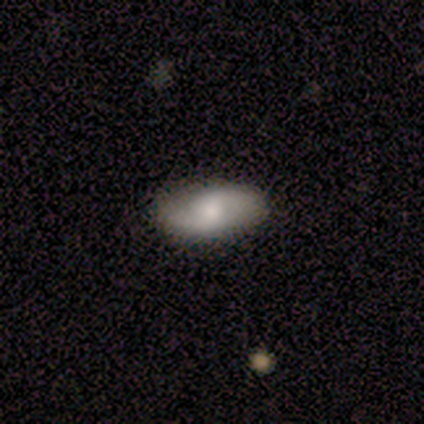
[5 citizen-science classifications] Smooth or featured?
  - featured or disk: 60% *
  - smooth: 40%
  - star or artifact: 0%
Edge-on disk?
  - no: 100% *
  - yes: 0%
Bar?
  - no: 100% *
  - strong: 0%
  - weak: 0%
Spiral arms?
  - yes: 100% *
  - no: 0%
Spiral winding?
  - loose: 100% *
  - tight: 0%
  - medium: 0%
Spiral arm count?
  - 2: 100% *
  - 1: 0%
  - 3: 0%
  - 4: 0%
  - more than 4: 0%
  - can't tell: 0%
Bulge size?
  - none: 67% *
  - moderate: 33%
  - dominant: 0%
  - large: 0%
  - small: 0%
Merging?
  - none: 100% *
  - minor disturbance: 0%
  - major disturbance: 0%
  - merger: 0%